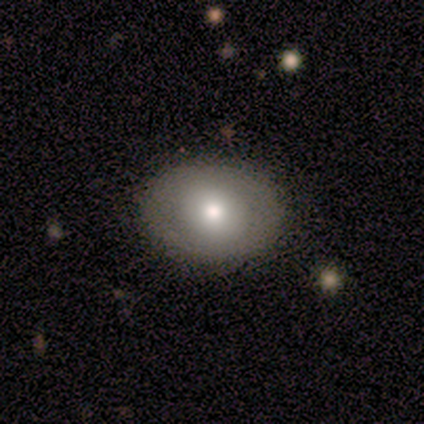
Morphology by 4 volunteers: smooth-or-featured: smooth: 75% | featured or disk: 25% | star or artifact: 0%
  how-rounded: in between: 67% | round: 33% | cigar-shaped: 0%
  merging: none: 100% | minor disturbance: 0% | major disturbance: 0% | merger: 0%